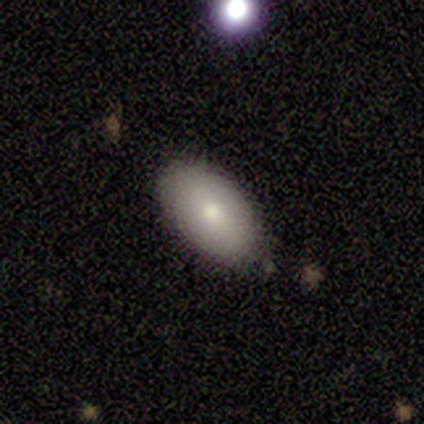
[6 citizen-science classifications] Volunteers were most divided on "merging": minor disturbance: 60%, none: 40%, major disturbance: 0%, merger: 0%. More confident: how rounded — in between (100%); smooth or featured — smooth (83%).